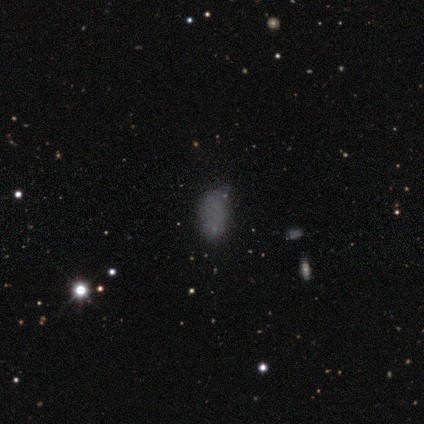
A smooth galaxy with no disk features (65%) that is in between round and cigar-shaped (92%). Merging: none (65%).